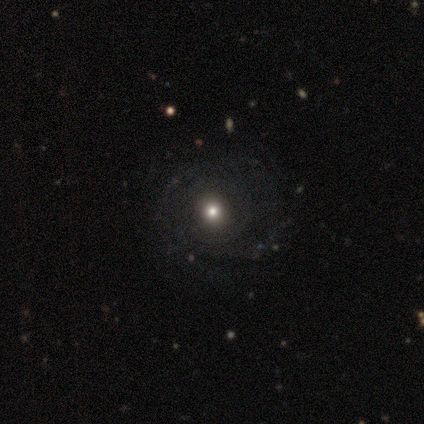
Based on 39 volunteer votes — This is likely a featured or disk galaxy (62%). It is clearly not viewed edge-on (100%). Bar: clearly no (88%). Spiral arm pattern: likely yes (79%). Spiral arm count: likely can't tell (63%). Spiral winding: likely tight (68%). Central bulge: possibly moderate (58%). Merging: possibly none (59%).